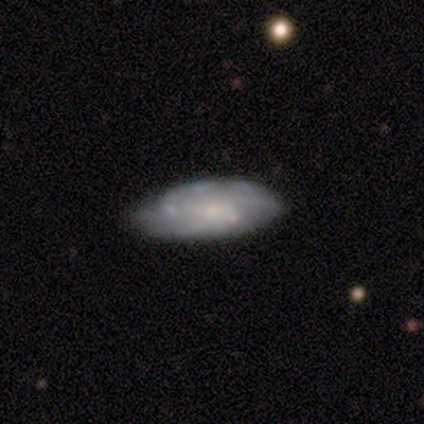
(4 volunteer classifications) Volunteers were most divided on "smooth or featured" (2-way tie): smooth: 50%, featured or disk: 50%, star or artifact: 0%; "merging" (2-way tie): none: 50%, merger: 50%, minor disturbance: 0%, major disturbance: 0%. More confident: how rounded — in between (100%).